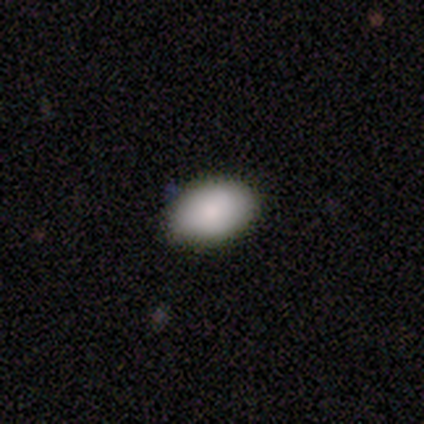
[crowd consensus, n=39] smooth 90%, star or artifact 8%, featured or disk 3%. Down the decision tree: how rounded — in between (94%); merging — none (92%).